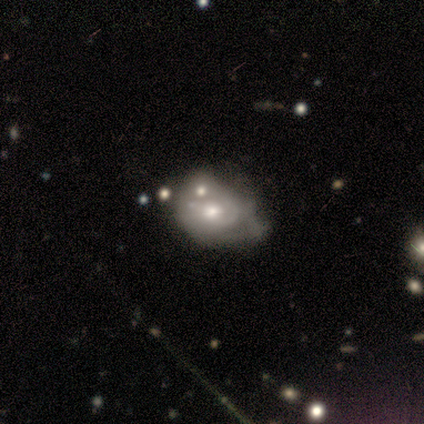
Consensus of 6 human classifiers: featured or disk 67%, smooth 33%, star or artifact 0%. Down the decision tree: edge-on disk — no (100%); bar — weak (50%, tied with no); spiral arms — yes (75%); spiral arm count — 1 (33%, tied with 2 and can't tell); spiral winding — tight (67%); bulge size — moderate (50%); merging — merger (50%).